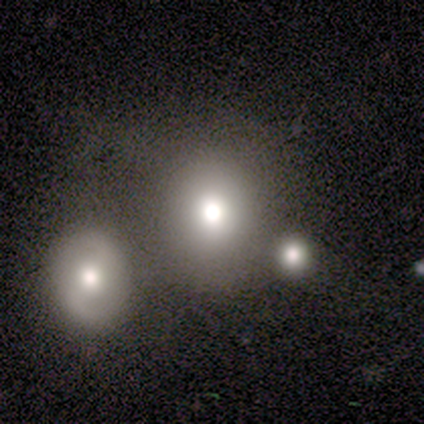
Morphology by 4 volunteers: type=smooth (50%, tied with star or artifact); roundness=round (50%, tied with in between); merging=none (50%, tied with merger).